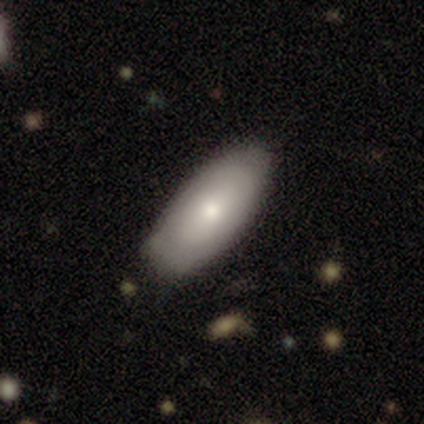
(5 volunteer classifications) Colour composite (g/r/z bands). It shows a smooth galaxy with no disk features (80%) that is in between round and cigar-shaped (100%). Merging: minor disturbance (100%).